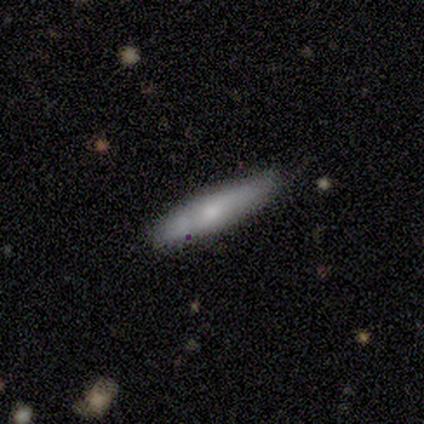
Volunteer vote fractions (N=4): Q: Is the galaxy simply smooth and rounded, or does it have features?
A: smooth — 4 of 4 (100%).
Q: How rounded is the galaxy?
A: cigar-shaped — 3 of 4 (75%).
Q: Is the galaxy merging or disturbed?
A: none — 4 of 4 (100%).